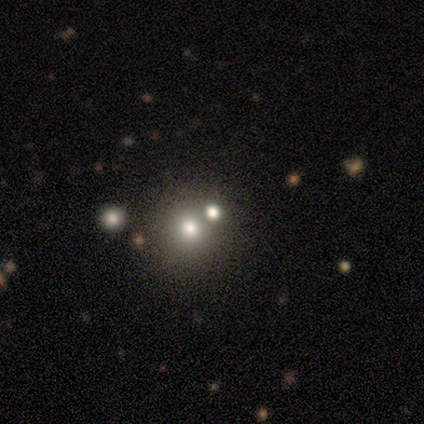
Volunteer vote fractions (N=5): featured or disk 40% (tied), star or artifact 40% (tied), smooth 20%. Down the decision tree: edge-on disk — no (100%); bar — strong (50%, tied with weak); spiral arms — no (100%); bulge size — dominant (50%, tied with small); merging — none (33%, tied with major disturbance and merger).